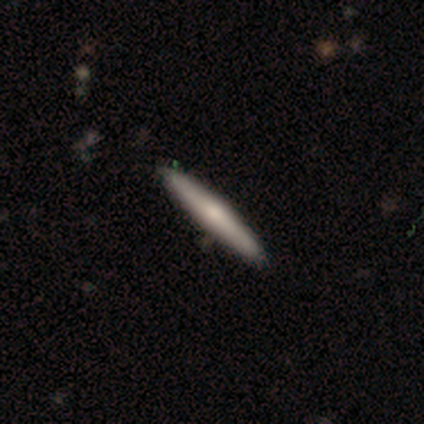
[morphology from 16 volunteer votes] Smooth or featured? smooth (56%)
How rounded? cigar-shaped (100%)
Merging? none (94%)